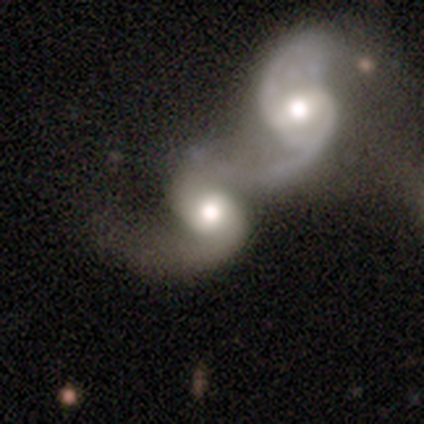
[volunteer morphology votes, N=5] Smooth or featured? featured or disk (100%)
Edge-on disk? no (100%)
Bar? no (80%)
Spiral arms? yes (100%)
Spiral winding? medium (60%)
Spiral arm count? 2 (80%)
Bulge size? large (40%, tied with moderate)
Merging? merger (80%)